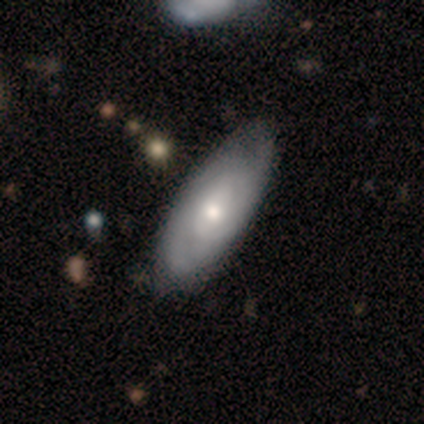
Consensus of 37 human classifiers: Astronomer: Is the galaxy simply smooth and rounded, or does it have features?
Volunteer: featured or disk — 65%.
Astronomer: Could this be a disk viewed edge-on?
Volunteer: no — 100%.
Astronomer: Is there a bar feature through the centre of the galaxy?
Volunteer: no — 58% (runner-up: weak, 42%).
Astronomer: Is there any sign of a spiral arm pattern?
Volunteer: yes — 100%.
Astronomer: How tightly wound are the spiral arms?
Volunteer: tight — 62%.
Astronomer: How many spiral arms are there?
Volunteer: can't tell — 54% (runner-up: 2, 29%).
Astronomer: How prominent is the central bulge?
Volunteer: moderate — 54% (runner-up: small, 46%).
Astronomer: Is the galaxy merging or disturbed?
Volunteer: none — 58%.